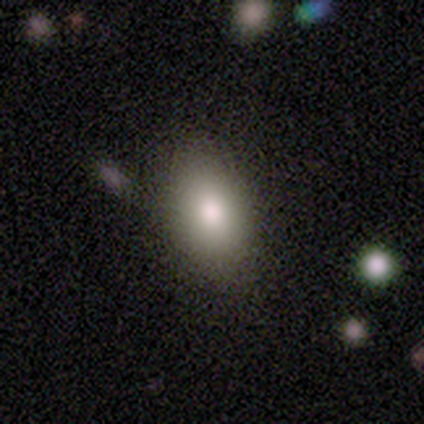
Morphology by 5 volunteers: type=smooth (100%); roundness=in between (80%); merging=none (100%).